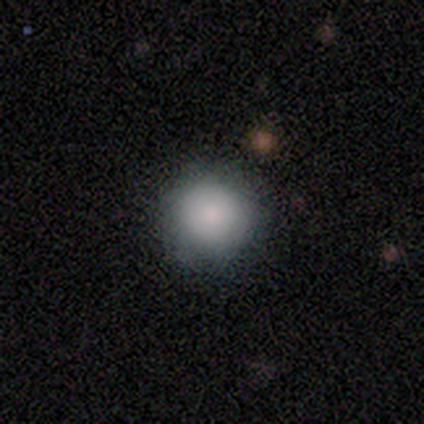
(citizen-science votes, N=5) This is clearly a smooth galaxy (80%). How rounded: clearly round (100%). Merging: clearly none (80%).